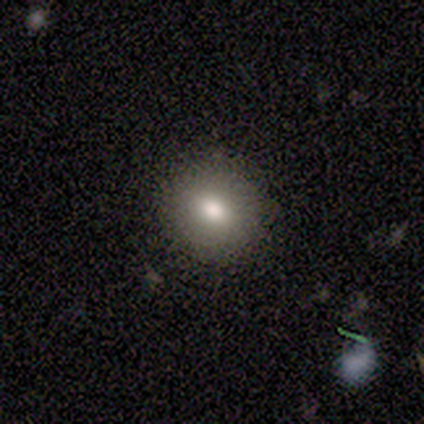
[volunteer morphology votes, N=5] type=smooth (80%); roundness=round (50%, tied with in between); merging=none (100%).